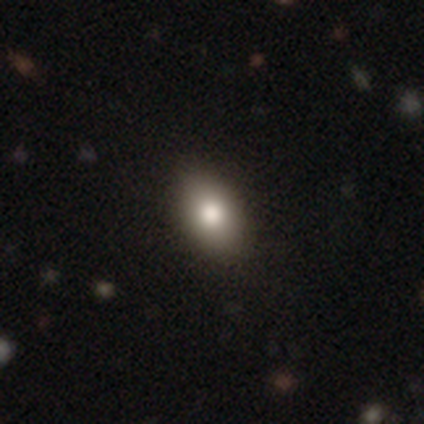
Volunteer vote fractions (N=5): This appears to be a smooth galaxy with no disk features (60%) that is in between round and cigar-shaped (100%). Merging: none (100%).